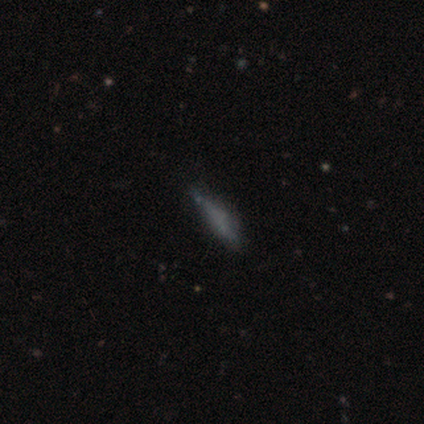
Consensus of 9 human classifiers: Volunteers were most divided on "merging": none: 75%, minor disturbance: 12%, major disturbance: 12%, merger: 0%. More confident: how rounded — cigar-shaped (86%); smooth or featured — smooth (78%).